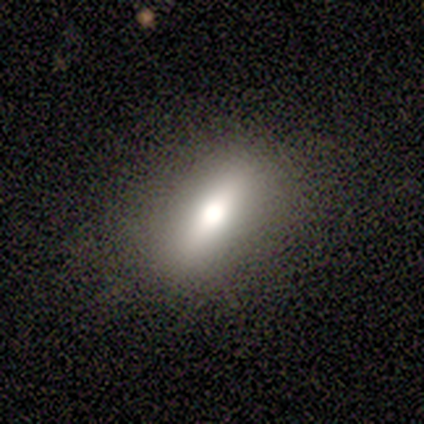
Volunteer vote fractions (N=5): smooth_or_featured: smooth (p=0.80) [alt: featured or disk p=0.20]
how_rounded: in between (p=1.00)
merging: none (p=1.00)